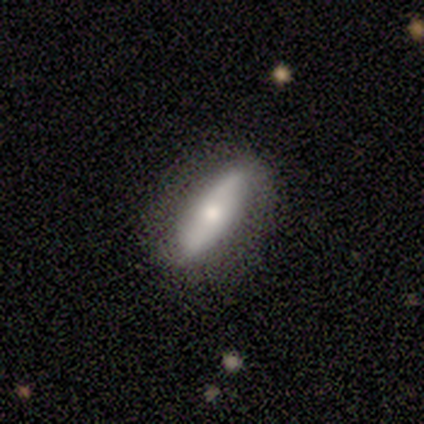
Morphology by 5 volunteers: Smooth or featured: featured or disk — 60% (smooth — 40%)
Edge-on disk: no — 67% (yes — 33%)
Bar: strong — 50% (tied with no — 50%)
Spiral arms: yes — 100%
Spiral winding: loose — 100%
Spiral arm count: 2 — 100%
Bulge size: moderate — 50% (tied with small — 50%)
Merging: none — 80% (merger — 20%)